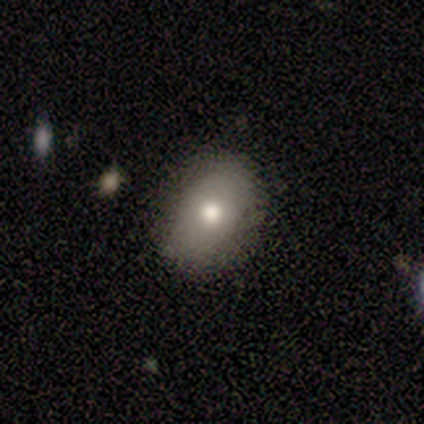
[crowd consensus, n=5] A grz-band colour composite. It shows a smooth galaxy with no disk features (80%) that is in between round and cigar-shaped (100%). Merging: none (100%).